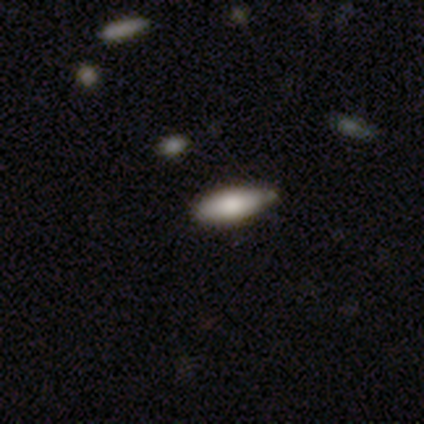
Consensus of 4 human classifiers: Smooth or featured: smooth — 75% (featured or disk — 25%)
How rounded: in between — 100%
Merging: none — 75% (minor disturbance — 25%)